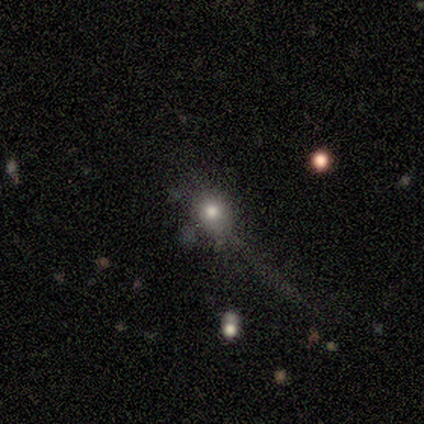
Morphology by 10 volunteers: Smooth or featured? smooth (70%)
How rounded? round (71%)
Merging? none (60%)